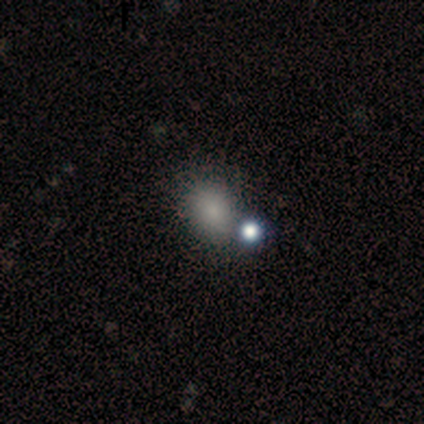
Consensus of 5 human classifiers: This is likely a smooth galaxy (60%). How rounded: likely in between (67%). Merging: likely merger (67%).